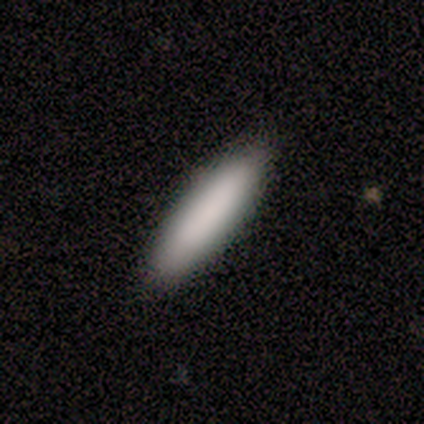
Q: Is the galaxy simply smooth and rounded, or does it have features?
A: smooth — 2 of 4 (50%).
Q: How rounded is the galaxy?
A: in between — 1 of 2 (50%, tied with cigar-shaped).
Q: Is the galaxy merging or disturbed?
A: none — 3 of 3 (100%).